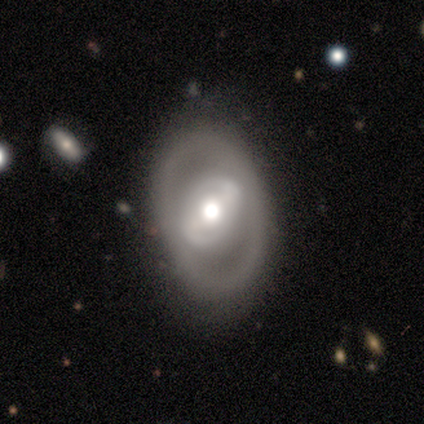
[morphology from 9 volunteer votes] A featured or disk galaxy (78%) with no bar (50%), no spiral arms (83%) and a small central bulge (50%). Merging: none (78%).